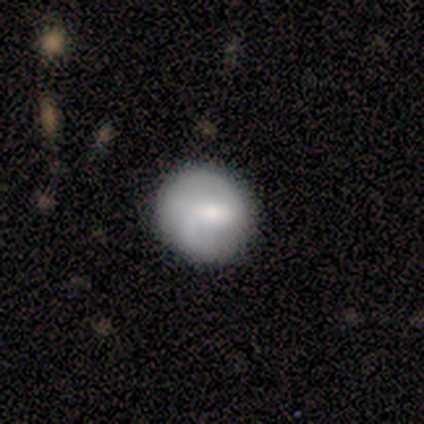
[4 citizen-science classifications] Volunteers were most divided on "merging": none: 75%, minor disturbance: 25%, major disturbance: 0%, merger: 0%. More confident: smooth or featured — smooth (100%); how rounded — round (100%).